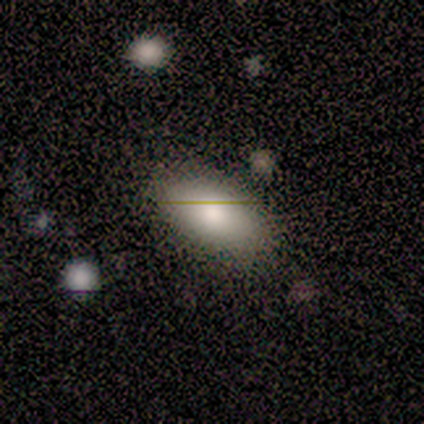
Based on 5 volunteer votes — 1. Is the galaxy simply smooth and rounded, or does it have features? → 80% smooth, 20% star or artifact, 0% featured or disk.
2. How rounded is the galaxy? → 100% in between, 0% round, 0% cigar-shaped.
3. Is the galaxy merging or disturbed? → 100% none, 0% minor disturbance, 0% major disturbance, 0% merger.